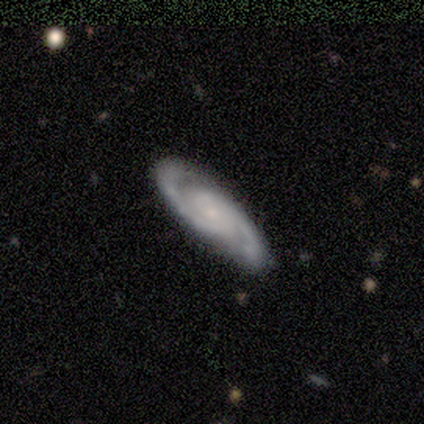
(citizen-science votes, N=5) A featured or disk galaxy (100%) with no bar (80%), 2 (100%) tight (60%) spiral arms (100%) and a small central bulge (100%).

Vote fractions:
- Smooth or featured? featured or disk: 100% / smooth: 0% / star or artifact: 0%
- Edge-on disk? no: 100% / yes: 0%
- Bar? no: 80% / weak: 20% / strong: 0%
- Spiral arms? yes: 100% / no: 0%
- Spiral winding? tight: 60% / medium: 40% / loose: 0%
- Spiral arm count? 2: 100% / 1: 0% / 3: 0% / 4: 0% / more than 4: 0% / can't tell: 0%
- Bulge size? small: 100% / dominant: 0% / large: 0% / moderate: 0% / none: 0%
- Merging? none: 100% / minor disturbance: 0% / major disturbance: 0% / merger: 0%